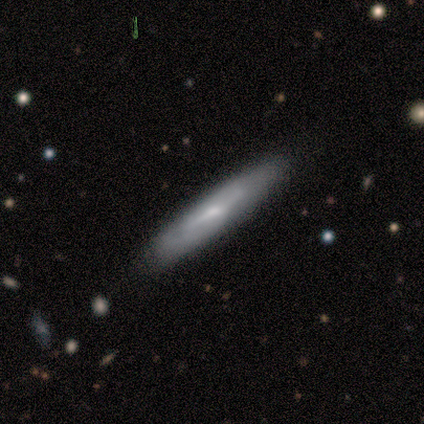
featured or disk 80%, smooth 20%, star or artifact 0%. Down the decision tree: edge-on disk — yes (75%); edge-on bulge — none (67%); merging — none (100%).